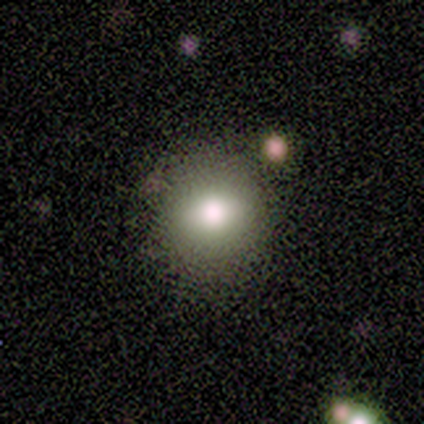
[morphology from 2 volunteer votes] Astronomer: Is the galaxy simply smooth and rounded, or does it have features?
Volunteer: smooth — 50%, tied with featured or disk at 50%.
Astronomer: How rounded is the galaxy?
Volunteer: round — 100%.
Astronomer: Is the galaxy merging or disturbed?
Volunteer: none — 100%.